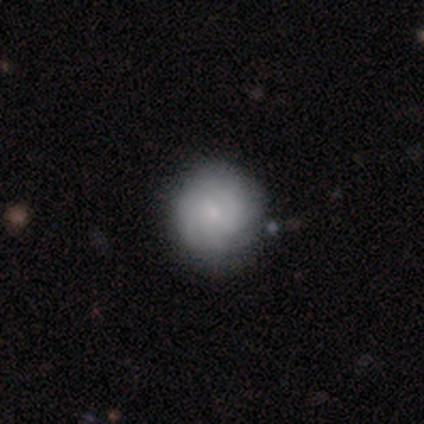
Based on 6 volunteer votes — Smooth or featured? 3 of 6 (50%, tied with featured or disk) said smooth. How rounded? 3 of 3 (100%) said round. Merging? 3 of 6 (50%) said none.